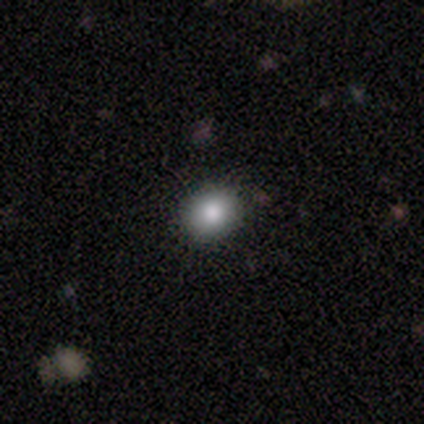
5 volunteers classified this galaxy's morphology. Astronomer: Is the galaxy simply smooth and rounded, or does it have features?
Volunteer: smooth — 80%.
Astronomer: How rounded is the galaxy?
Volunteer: round — 75%.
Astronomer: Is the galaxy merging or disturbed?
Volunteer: none — 100%.